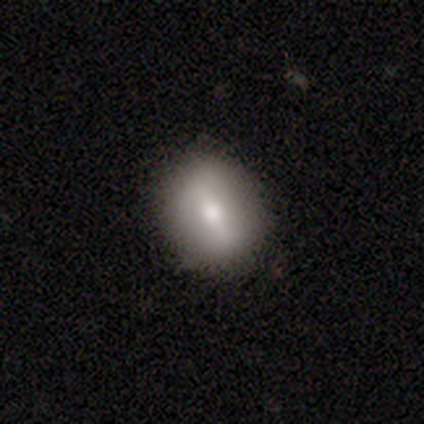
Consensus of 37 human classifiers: Smooth or featured: smooth — 57% (featured or disk — 30%)
How rounded: round — 57% (in between — 38%)
Merging: none — 88% (minor disturbance — 12%)